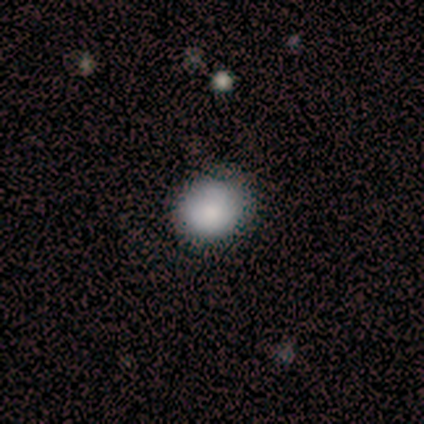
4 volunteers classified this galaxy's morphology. smooth 50% (tied), star or artifact 50% (tied), featured or disk 0%. Down the decision tree: how rounded — round (100%); merging — none (100%).